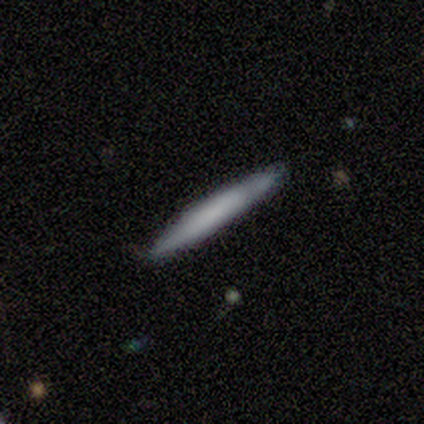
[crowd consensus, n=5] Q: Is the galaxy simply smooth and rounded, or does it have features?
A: smooth — 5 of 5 (100%).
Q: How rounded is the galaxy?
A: cigar-shaped — 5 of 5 (100%).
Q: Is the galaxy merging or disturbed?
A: none — 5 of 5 (100%).